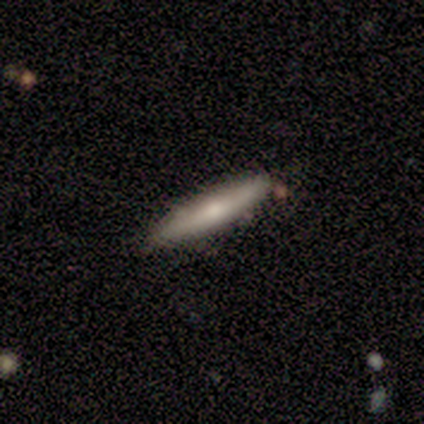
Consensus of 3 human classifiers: featured or disk 100%, smooth 0%, star or artifact 0%. Down the decision tree: edge-on disk — yes (67%); edge-on bulge — rounded (100%); merging — none (100%).